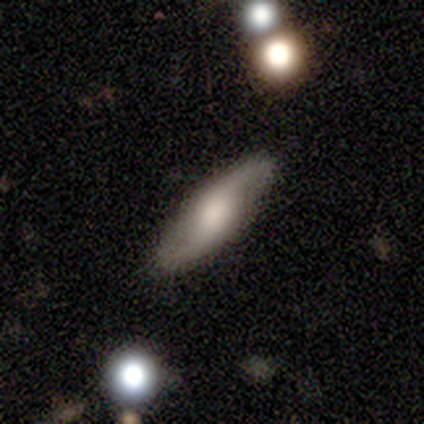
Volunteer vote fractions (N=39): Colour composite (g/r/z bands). It shows a featured or disk galaxy (79%) with no bar (54%), 2 (100%) loose (62%) spiral arms (88%) and a large central bulge (62%). Merging: none (87%).